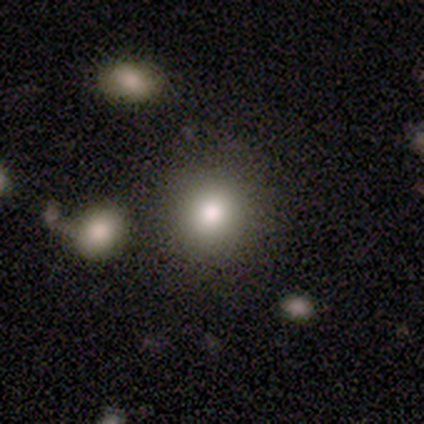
This is clearly a smooth galaxy (100%). How rounded: clearly round (80%). Merging: likely minor disturbance (60%).